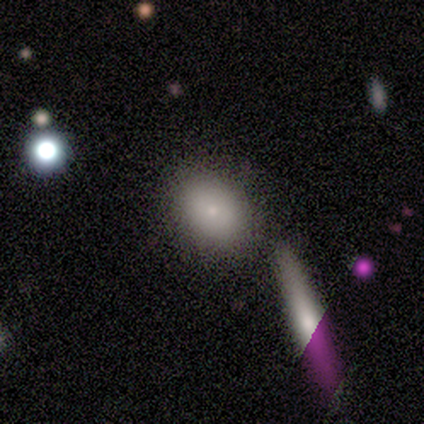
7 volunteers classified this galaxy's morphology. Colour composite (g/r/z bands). It shows a smooth galaxy with no disk features (71%) that is in between round and cigar-shaped (80%). Merging: none (71%).